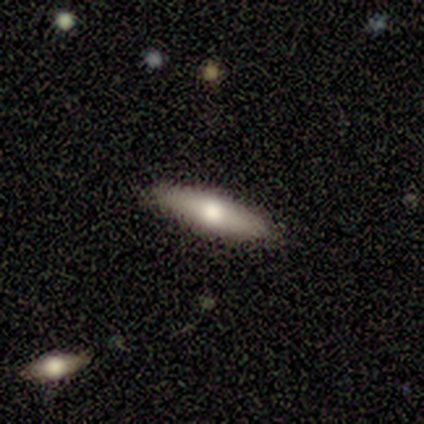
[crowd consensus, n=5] smooth_or_featured: featured or disk (p=0.60) [alt: smooth p=0.40]
disk_edge_on: yes (p=0.67) [alt: no p=0.33]
edge_on_bulge: rounded (p=1.00)
merging: none (p=0.80) [alt: minor disturbance p=0.20]